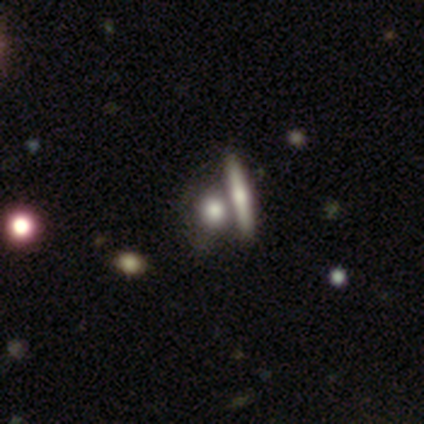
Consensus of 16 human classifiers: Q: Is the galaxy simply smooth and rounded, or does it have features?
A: smooth — 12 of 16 (75%).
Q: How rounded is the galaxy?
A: round — 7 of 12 (58%).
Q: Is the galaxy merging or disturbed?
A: none — 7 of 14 (50%).